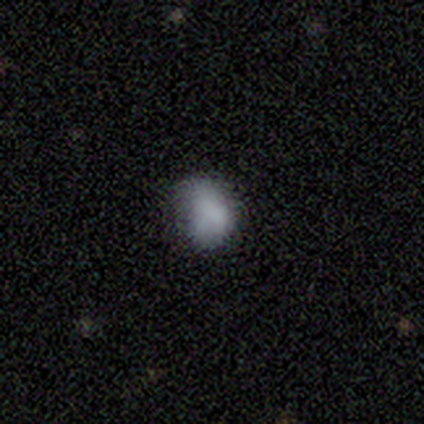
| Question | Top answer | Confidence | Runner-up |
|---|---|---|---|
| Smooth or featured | smooth | 100% | — |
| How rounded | round | 75% | in between (25%) |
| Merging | none | 75% | minor disturbance (25%) |